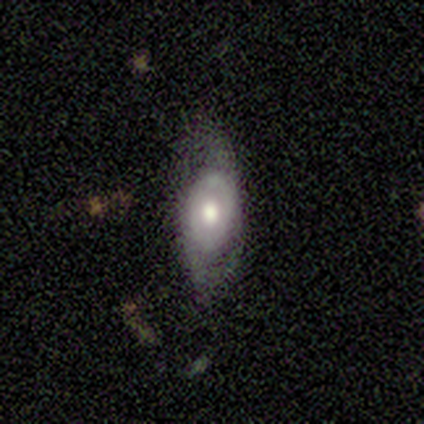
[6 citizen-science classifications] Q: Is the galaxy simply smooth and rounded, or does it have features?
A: featured or disk — 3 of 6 (50%).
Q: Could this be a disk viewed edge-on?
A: no — 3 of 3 (100%).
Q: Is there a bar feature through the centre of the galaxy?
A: no — 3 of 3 (100%).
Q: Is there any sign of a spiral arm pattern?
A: yes — 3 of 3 (100%).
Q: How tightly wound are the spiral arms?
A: loose — 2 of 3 (67%).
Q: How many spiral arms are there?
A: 2 — 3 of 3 (100%).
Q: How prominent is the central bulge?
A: moderate — 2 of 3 (67%).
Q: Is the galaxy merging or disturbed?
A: none — 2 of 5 (40%, tied with major disturbance).